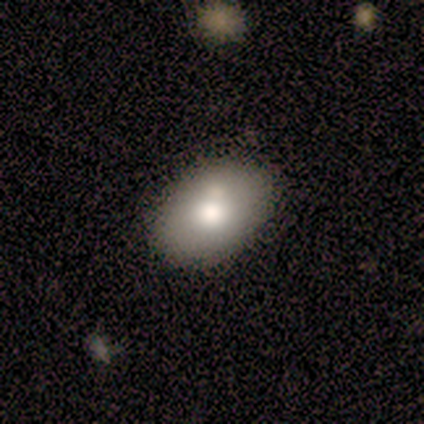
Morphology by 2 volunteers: Smooth or featured? 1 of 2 (50%, tied with featured or disk) said smooth. How rounded? 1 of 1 (100%) said round. Merging? 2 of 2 (100%) said none.